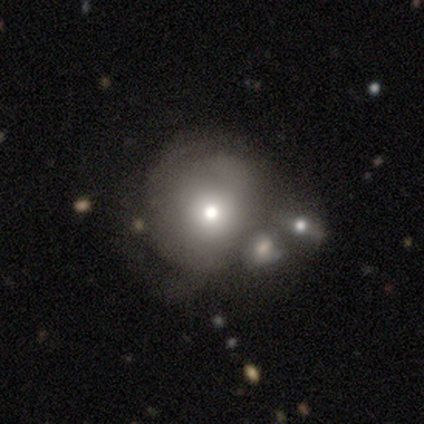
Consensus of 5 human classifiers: This is likely a smooth galaxy (60%). How rounded: clearly round (100%). Merging: marginally none (40%, tied with merger).